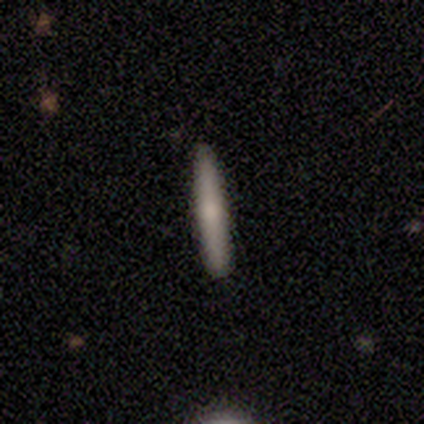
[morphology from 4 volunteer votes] Smooth or featured?
  - smooth: 50% * (tied)
  - featured or disk: 50% * (tied)
  - star or artifact: 0%
How rounded?
  - cigar-shaped: 100% *
  - round: 0%
  - in between: 0%
Merging?
  - none: 75% *
  - minor disturbance: 25%
  - major disturbance: 0%
  - merger: 0%